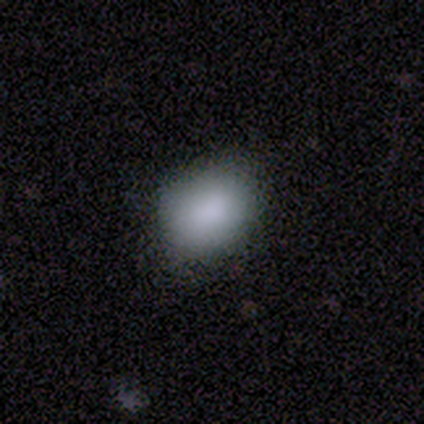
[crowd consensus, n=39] Q: Smooth or featured?
A: smooth (85%); runner-up: star or artifact (10%)
Q: How rounded?
A: in between (67%); runner-up: round (30%)
Q: Merging?
A: none (74%); runner-up: minor disturbance (23%)